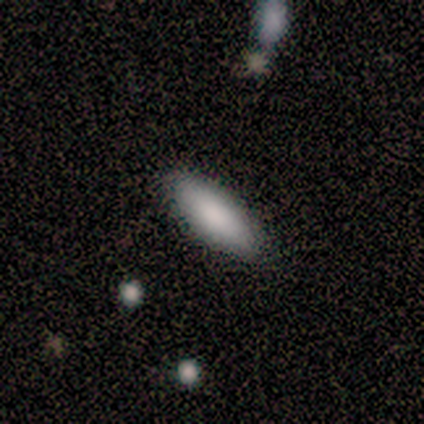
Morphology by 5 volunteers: smooth-or-featured: smooth: 80% | star or artifact: 20% | featured or disk: 0%
  how-rounded: in between: 75% | cigar-shaped: 25% | round: 0%
  merging: none: 100% | minor disturbance: 0% | major disturbance: 0% | merger: 0%